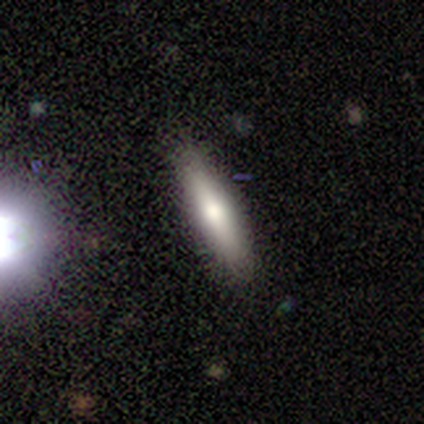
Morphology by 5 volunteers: Smooth or featured: smooth — 100%
How rounded: cigar-shaped — 60% (in between — 40%)
Merging: none — 100%